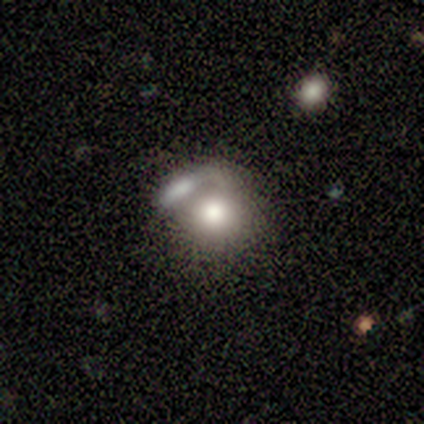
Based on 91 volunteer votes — Morphology: type=smooth (74%); roundness=round (81%); merging=merger (58%).